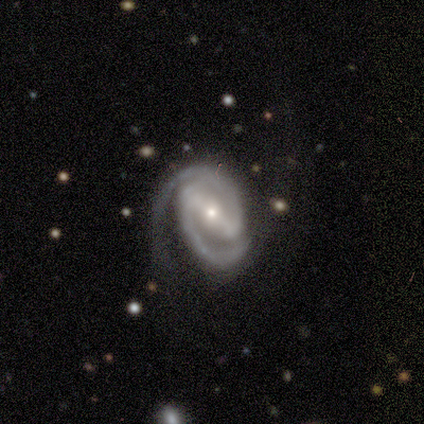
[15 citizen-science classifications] This is clearly a featured or disk galaxy (93%). It is clearly not viewed edge-on (100%). Bar: likely strong (71%). Spiral arm pattern: clearly yes (100%). Spiral arm count: clearly 2 (100%). Spiral winding: possibly tight (57%). Central bulge: likely small (64%). Merging: likely none (67%).